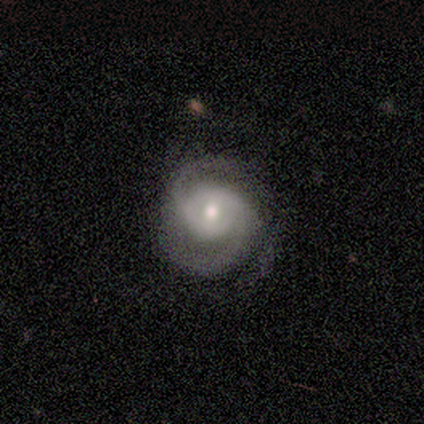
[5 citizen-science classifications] Smooth or featured: featured or disk — 100%
Edge-on disk: no — 100%
Bar: no — 80% (strong — 20%)
Spiral arms: yes — 100%
Spiral winding: medium — 80% (tight — 20%)
Spiral arm count: 2 — 100%
Bulge size: moderate — 80% (large — 20%)
Merging: none — 80% (minor disturbance — 20%)